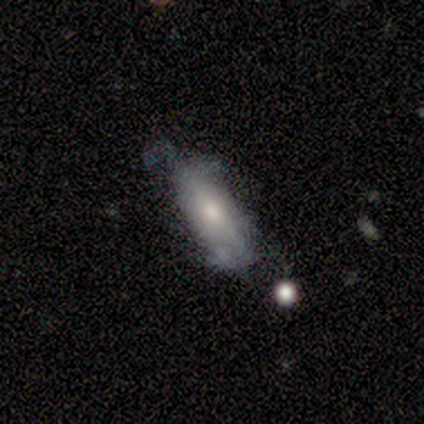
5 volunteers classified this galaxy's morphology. Smooth or featured?
  - smooth: 80% *
  - featured or disk: 20%
  - star or artifact: 0%
How rounded?
  - in between: 100% *
  - round: 0%
  - cigar-shaped: 0%
Merging?
  - minor disturbance: 40% *
  - none: 20%
  - major disturbance: 20%
  - merger: 20%